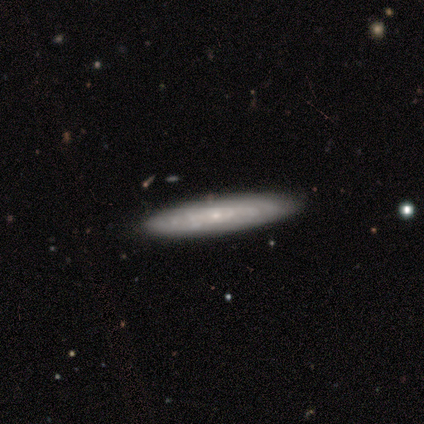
Q: Smooth or featured?
A: featured or disk (60%); runner-up: smooth (20%)
Q: Edge-on disk?
A: no (67%); runner-up: yes (33%)
Q: Bar?
A: no (100%)
Q: Spiral arms?
A: no (100%)
Q: Bulge size?
A: small (100%)
Q: Merging?
A: none (100%)